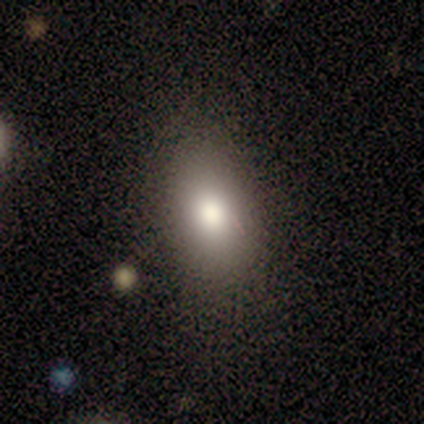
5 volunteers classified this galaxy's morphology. A smooth galaxy with no disk features (80%) that is in between round and cigar-shaped (100%). Merging: none (100%).